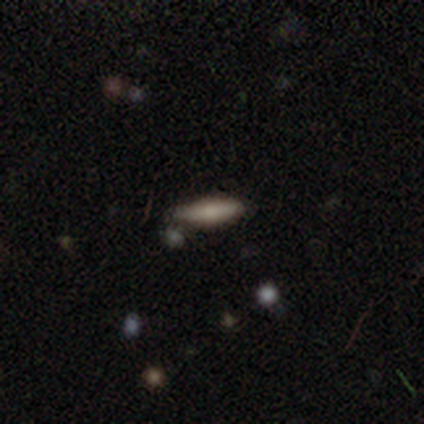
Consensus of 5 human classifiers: This appears to be a smooth galaxy with no disk features (80%) that is in between round and cigar-shaped (50%, tied with cigar-shaped). Merging: none (100%).